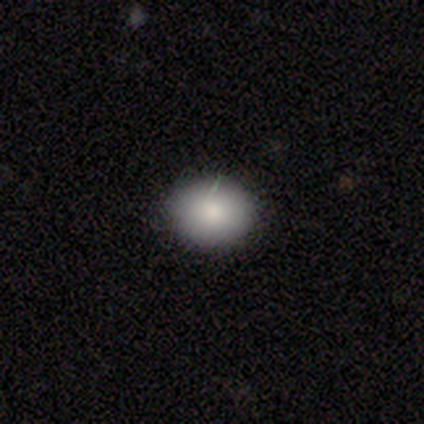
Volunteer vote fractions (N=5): Smooth or featured?
  - smooth: 100% *
  - featured or disk: 0%
  - star or artifact: 0%
How rounded?
  - round: 80% *
  - in between: 20%
  - cigar-shaped: 0%
Merging?
  - none: 100% *
  - minor disturbance: 0%
  - major disturbance: 0%
  - merger: 0%